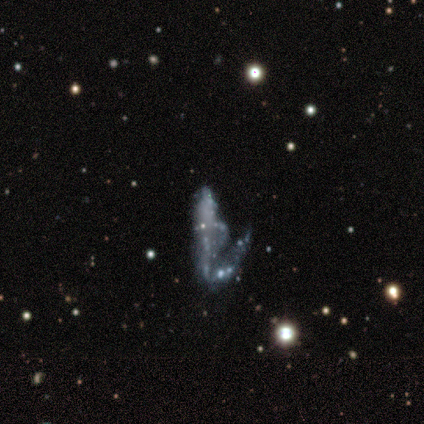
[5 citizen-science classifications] smooth_or_featured: featured or disk (p=0.60) [alt: star or artifact p=0.40]
disk_edge_on: no (p=0.67) [alt: yes p=0.33]
bar: no (p=1.00)
has_spiral_arms: no (p=1.00)
bulge_size: none (p=1.00)
merging: major disturbance (p=0.67) [alt: none p=0.33]